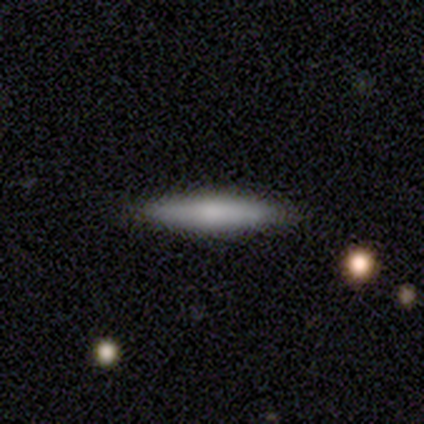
Smooth or featured: smooth — 75% (featured or disk — 25%)
How rounded: cigar-shaped — 100%
Merging: none — 75% (minor disturbance — 25%)